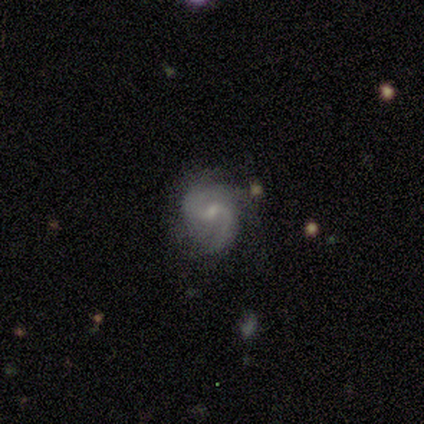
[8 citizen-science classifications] Smooth or featured: featured or disk — 100%
Edge-on disk: no — 100%
Bar: weak — 88% (no — 12%)
Spiral arms: yes — 100%
Spiral winding: medium — 50% (loose — 38%)
Spiral arm count: 2 — 62% (3 — 25%)
Bulge size: small — 50% (moderate — 38%)
Merging: none — 50% (minor disturbance — 38%)